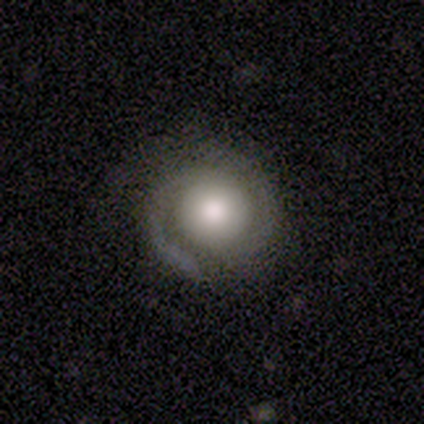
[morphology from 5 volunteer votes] type=featured or disk (100%); edge-on=no (100%); bar=no (80%); spiral arms=yes (80%); winding=medium (100%); arm count=2 (100%); bulge=moderate (60%); merging=none (60%).